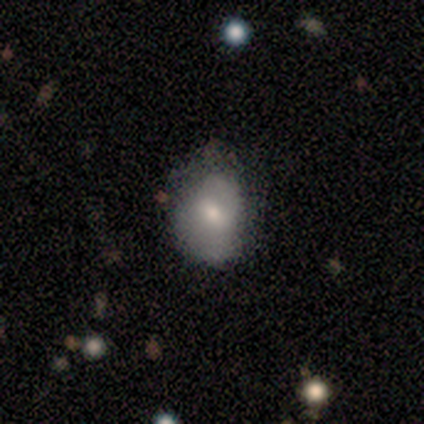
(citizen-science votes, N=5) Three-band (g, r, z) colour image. It shows a smooth galaxy with no disk features (80%) that is in between round and cigar-shaped (100%). Merging: none (60%).